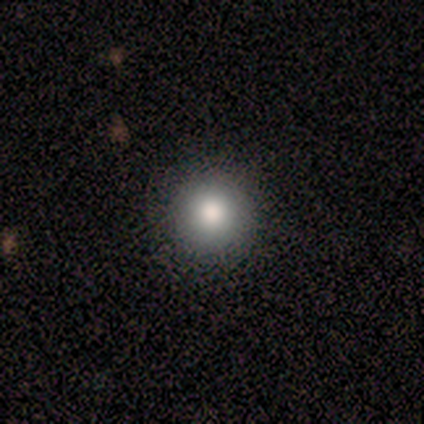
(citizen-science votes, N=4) Q: Smooth or featured?
A: smooth (100%)
Q: How rounded?
A: round (100%)
Q: Merging?
A: none (100%)